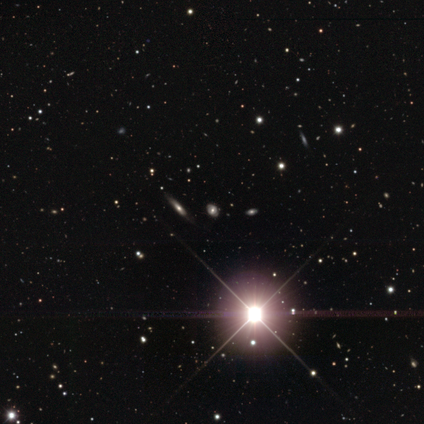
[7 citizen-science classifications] Smooth or featured?
  - star or artifact: 86% *
  - smooth: 14%
  - featured or disk: 0%